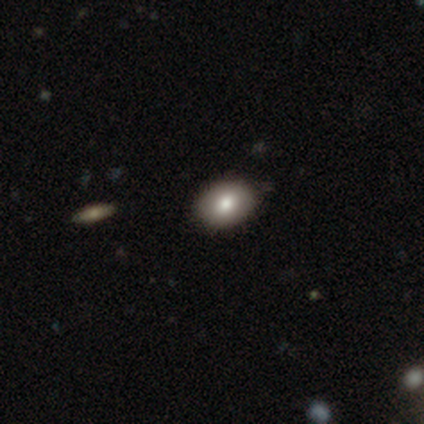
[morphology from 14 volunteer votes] Overall: smooth (79%). How rounded: in between (91%). Merging: none (100%).